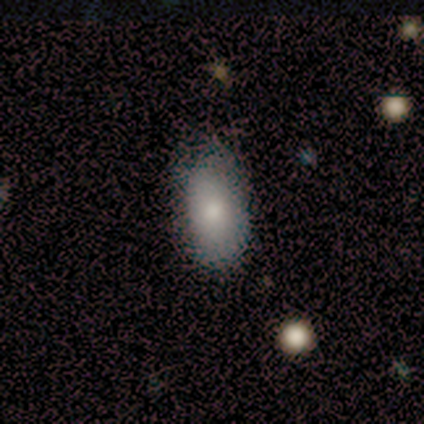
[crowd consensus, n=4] smooth_or_featured: smooth (p=1.00)
how_rounded: in between (p=1.00)
merging: none (p=0.50) [tied with: minor disturbance p=0.50]